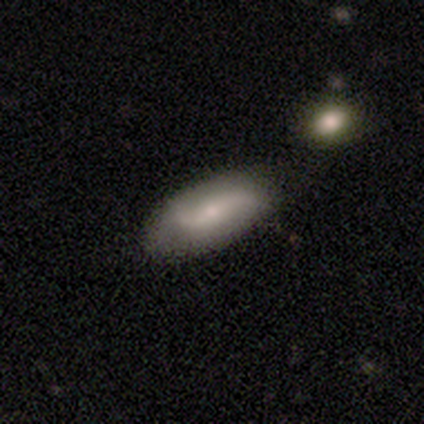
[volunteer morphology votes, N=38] smooth 50%, featured or disk 47%, star or artifact 3%. Down the decision tree: how rounded — in between (84%); merging — none (70%).